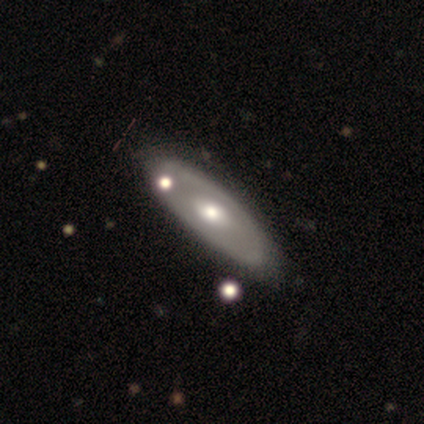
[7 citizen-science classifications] Smooth or featured?
  - featured or disk: 86% *
  - star or artifact: 14%
  - smooth: 0%
Edge-on disk?
  - no: 83% *
  - yes: 17%
Bar?
  - no: 60% *
  - strong: 20%
  - weak: 20%
Spiral arms?
  - no: 60% *
  - yes: 40%
Bulge size?
  - moderate: 100% *
  - dominant: 0%
  - large: 0%
  - small: 0%
  - none: 0%
Merging?
  - none: 83% *
  - minor disturbance: 17%
  - major disturbance: 0%
  - merger: 0%